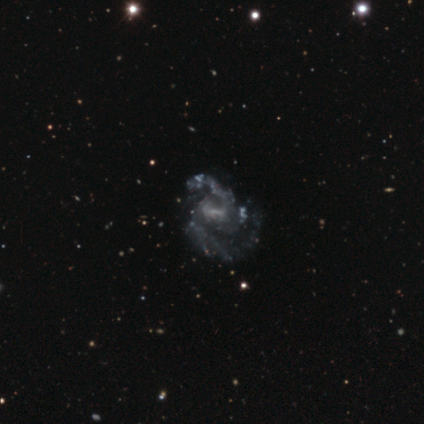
A featured or disk galaxy (80%) with a weak bar (50%), 2 (67%) medium (100%) spiral arms (75%) and a small central bulge (100%). Merging: major disturbance (75%).